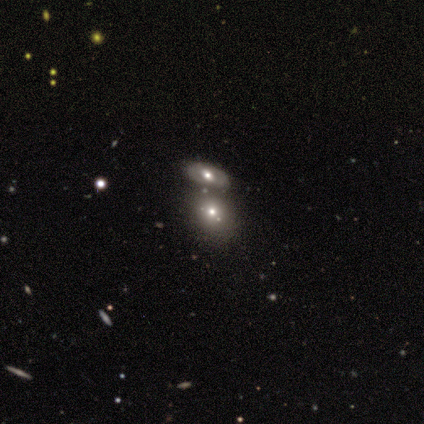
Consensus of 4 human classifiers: Overall: smooth (100%). How rounded: in between (75%). Merging: merger (75%).